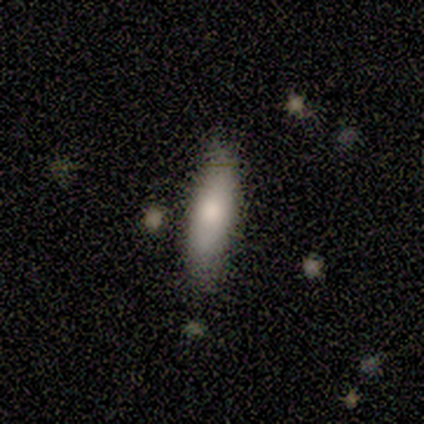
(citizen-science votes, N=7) smooth_or_featured: smooth (p=1.00)
how_rounded: cigar-shaped (p=0.86) [alt: in between p=0.14]
merging: none (p=1.00)